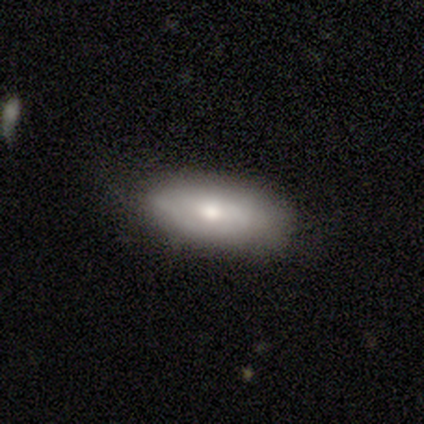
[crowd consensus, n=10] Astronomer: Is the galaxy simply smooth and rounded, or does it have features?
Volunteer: featured or disk — 70%.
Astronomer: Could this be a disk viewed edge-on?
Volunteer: no — 86%.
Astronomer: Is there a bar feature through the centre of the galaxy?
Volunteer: no — 83%.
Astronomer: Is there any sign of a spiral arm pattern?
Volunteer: yes — 50%, tied with no at 50%.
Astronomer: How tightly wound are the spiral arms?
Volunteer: medium — 67%.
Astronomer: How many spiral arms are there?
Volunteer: can't tell — 67%.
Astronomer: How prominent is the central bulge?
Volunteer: large — 33%, tied with moderate and small at 33%.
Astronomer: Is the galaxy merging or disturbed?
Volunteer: none — 80%.